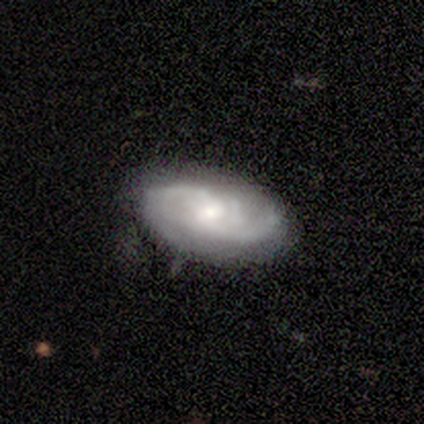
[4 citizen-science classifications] Morphology: type=featured or disk (75%); edge-on=no (100%); bar=no (67%); spiral arms=yes (100%); winding=medium (67%); arm count=2 (67%); bulge=small (67%); merging=none (75%).